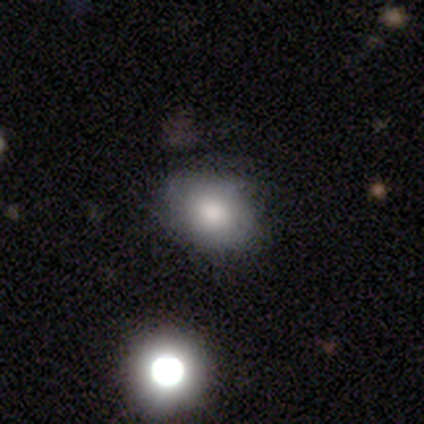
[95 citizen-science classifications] Smooth or featured? 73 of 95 (77%) said smooth. How rounded? 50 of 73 (68%) said in between. Merging? 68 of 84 (81%) said none.